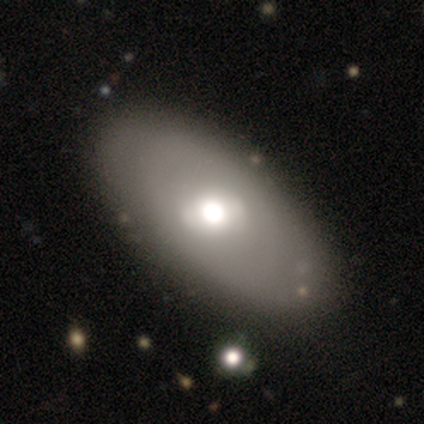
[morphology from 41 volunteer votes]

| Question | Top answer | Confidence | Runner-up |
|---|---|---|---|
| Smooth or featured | smooth | 56% | featured or disk (41%) |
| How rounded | in between | 91% | round (9%) |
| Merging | none | 57% | minor disturbance (2%) |